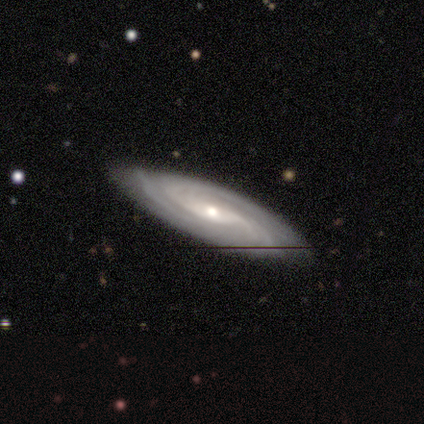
Volunteers were most divided on "bar": weak: 50%, no: 38%, strong: 12%. Remaining: spiral arms — yes (100%); merging — none (100%); smooth or featured — featured or disk (90%); edge-on disk — no (89%); bulge size — small (75%); spiral winding — medium (50%); spiral arm count — can't tell (38%).